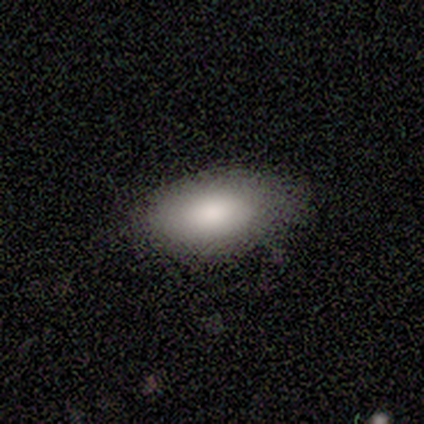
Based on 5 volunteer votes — Smooth or featured?
  - smooth: 100% *
  - featured or disk: 0%
  - star or artifact: 0%
How rounded?
  - in between: 80% *
  - cigar-shaped: 20%
  - round: 0%
Merging?
  - none: 100% *
  - minor disturbance: 0%
  - major disturbance: 0%
  - merger: 0%